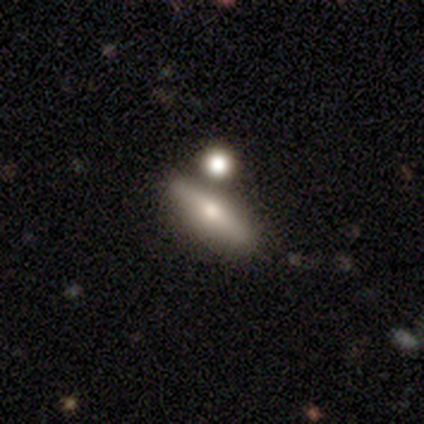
Q: Smooth or featured?
A: featured or disk (62%); runner-up: smooth (31%)
Q: Edge-on disk?
A: yes (88%); runner-up: no (12%)
Q: Edge-on bulge?
A: rounded (90%); runner-up: boxy (5%)
Q: Merging?
A: none (72%); runner-up: merger (17%)